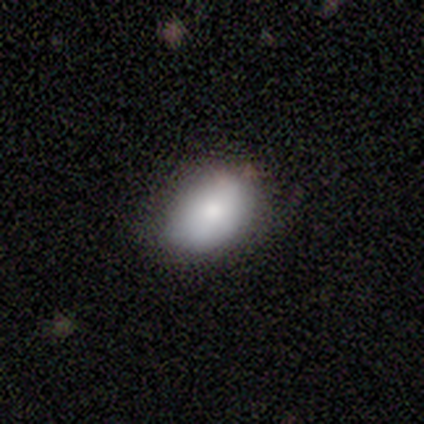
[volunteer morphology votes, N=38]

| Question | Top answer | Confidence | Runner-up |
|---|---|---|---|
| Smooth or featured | smooth | 87% | featured or disk (11%) |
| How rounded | in between | 85% | round (15%) |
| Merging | none | 62% | minor disturbance (30%) |